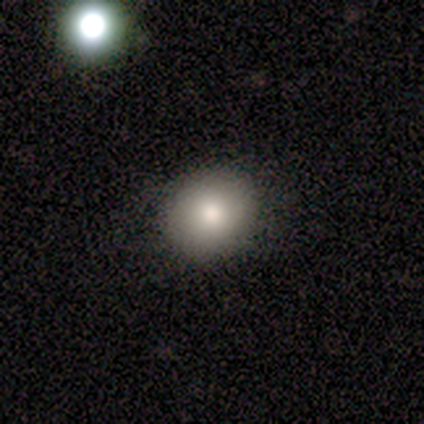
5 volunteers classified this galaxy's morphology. Overall: smooth (80%). How rounded: round (100%). Merging: none (80%).